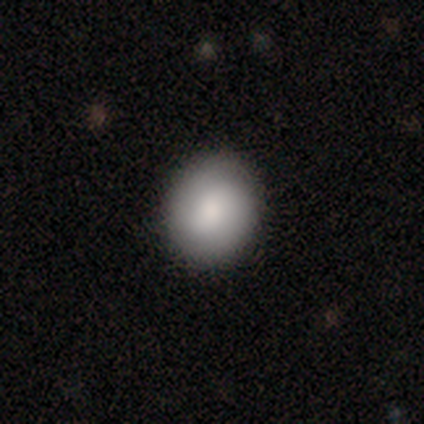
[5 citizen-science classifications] Overall: smooth (80%). How rounded: round (100%). Merging: none (100%).